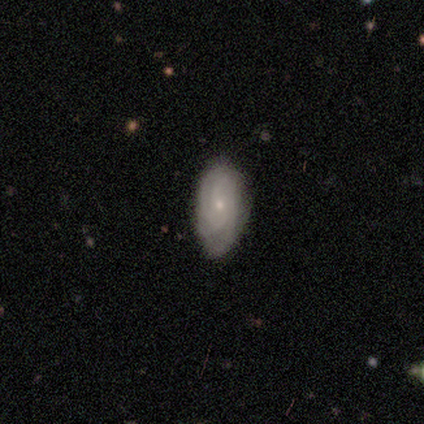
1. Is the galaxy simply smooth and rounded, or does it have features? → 71% featured or disk, 26% smooth, 3% star or artifact.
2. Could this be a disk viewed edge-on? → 92% no, 8% yes.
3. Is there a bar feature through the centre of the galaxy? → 74% no, 22% weak, 4% strong.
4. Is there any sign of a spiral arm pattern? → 91% yes, 9% no.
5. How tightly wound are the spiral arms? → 67% tight, 29% medium, 5% loose.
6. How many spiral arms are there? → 33% 4 (tied), 33% can't tell (tied), 19% 3, 14% 2, 0% 1, 0% more than 4.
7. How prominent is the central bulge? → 87% small, 13% moderate, 0% dominant, 0% large, 0% none.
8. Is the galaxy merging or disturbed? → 85% none, 12% minor disturbance, 3% major disturbance, 0% merger.